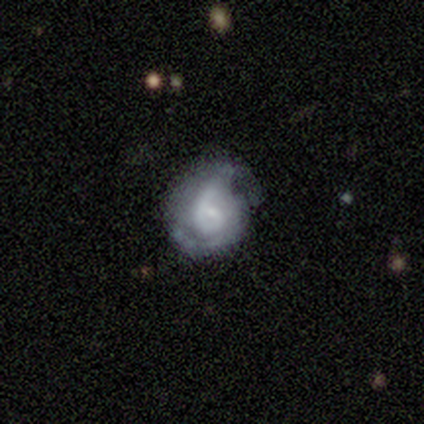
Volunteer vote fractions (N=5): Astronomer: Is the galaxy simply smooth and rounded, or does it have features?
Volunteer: featured or disk — 80%.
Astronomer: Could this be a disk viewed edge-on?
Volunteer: no — 100%.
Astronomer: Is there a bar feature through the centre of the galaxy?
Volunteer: no — 100%.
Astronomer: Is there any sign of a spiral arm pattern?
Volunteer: yes — 100%.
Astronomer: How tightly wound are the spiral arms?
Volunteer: tight — 50%.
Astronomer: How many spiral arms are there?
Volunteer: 1 — 75%.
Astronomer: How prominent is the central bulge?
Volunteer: small — 50%.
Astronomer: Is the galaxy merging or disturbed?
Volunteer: none — 60% (runner-up: major disturbance, 40%).